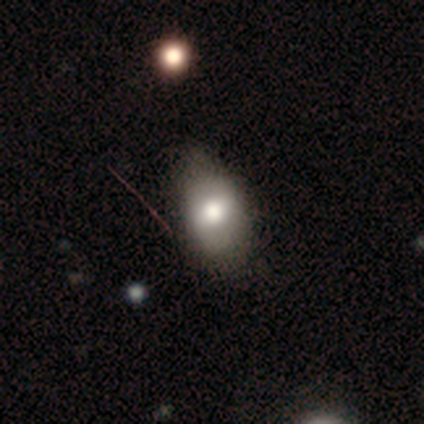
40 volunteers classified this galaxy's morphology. A smooth galaxy with no disk features (70%) that is in between round and cigar-shaped (79%).

Vote fractions:
- Smooth or featured? smooth: 70% / featured or disk: 25% / star or artifact: 5%
- How rounded? in between: 79% / round: 11% / cigar-shaped: 11%
- Merging? none: 39% / minor disturbance: 21% / major disturbance: 11% / merger: 0%